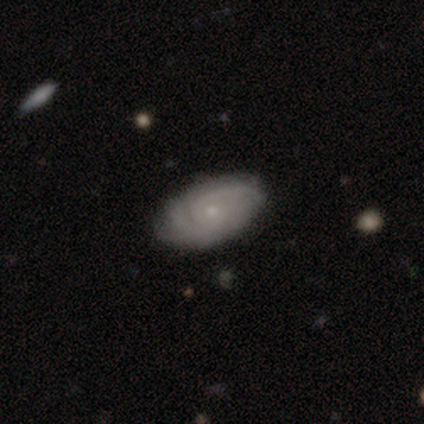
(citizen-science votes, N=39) A featured or disk galaxy (79%) with no bar (77%), tight (57%) spiral arms (90%) and a small central bulge (77%).

Vote fractions:
- Smooth or featured? featured or disk: 79% / smooth: 18% / star or artifact: 3%
- Edge-on disk? no: 100% / yes: 0%
- Bar? no: 77% / weak: 23% / strong: 0%
- Spiral arms? yes: 90% / no: 10%
- Spiral winding? tight: 57% / medium: 36% / loose: 7%
- Spiral arm count? can't tell: 39% / 2: 29% / 3: 18% / 4: 11% / more than 4: 4% / 1: 0%
- Bulge size? small: 77% / moderate: 16% / dominant: 3% / none: 3% / large: 0%
- Merging? none: 79% / minor disturbance: 18% / major disturbance: 3% / merger: 0%